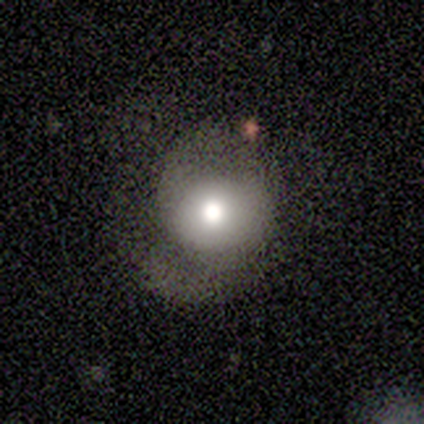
Morphology: type=smooth (100%); roundness=round (100%); merging=none (40%, tied with minor disturbance).